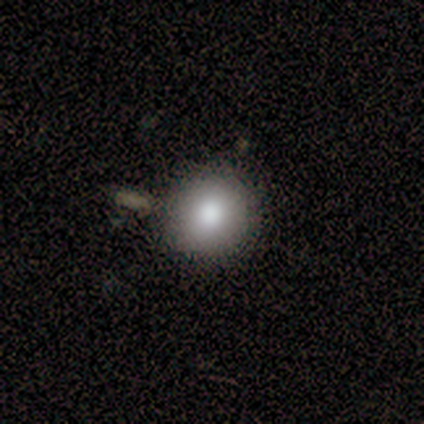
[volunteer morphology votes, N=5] Consensus on every question: smooth or featured — smooth (100%); how rounded — round (100%); merging — none (100%).